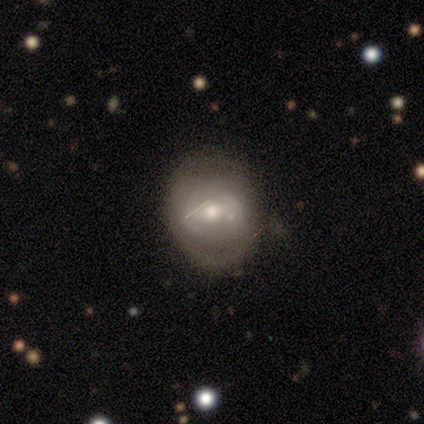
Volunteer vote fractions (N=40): This appears to be a featured or disk galaxy (70%) with a weak bar (36%, tied with no), no spiral arms (54%) and a moderate central bulge (75%). Merging: none (47%).